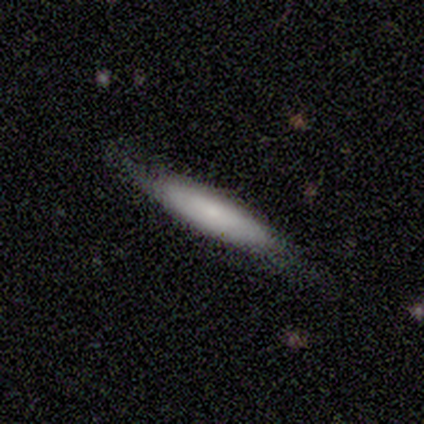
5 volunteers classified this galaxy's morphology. Smooth or featured: smooth — 60% (featured or disk — 40%)
How rounded: in between — 67% (cigar-shaped — 33%)
Merging: none — 100%